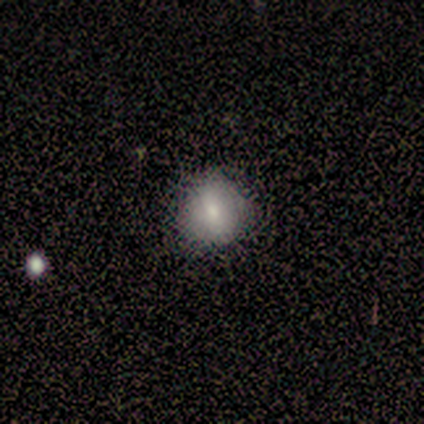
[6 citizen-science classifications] Overall: smooth (100%). How rounded: round (100%). Merging: none (67%; minor disturbance 33%).